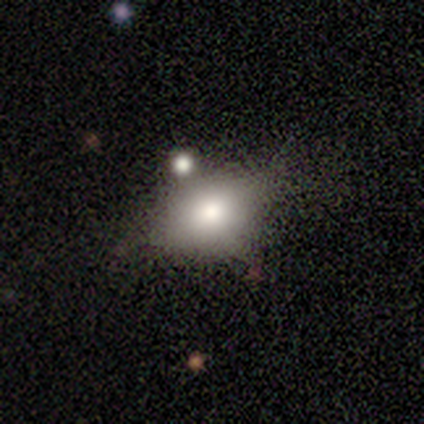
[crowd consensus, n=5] Q: Smooth or featured?
A: smooth (80%); runner-up: featured or disk (20%)
Q: How rounded?
A: in between (75%); runner-up: round (25%)
Q: Merging?
A: minor disturbance (40%); runner-up: none (20%)